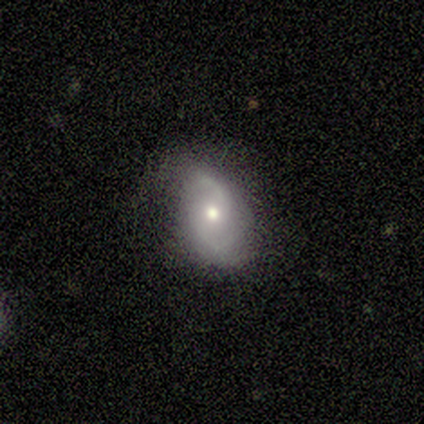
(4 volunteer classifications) A featured or disk galaxy (100%) with no bar (100%), 2 (67%) medium (67%) spiral arms (75%) and a moderate central bulge (75%).

Vote fractions:
- Smooth or featured? featured or disk: 100% / smooth: 0% / star or artifact: 0%
- Edge-on disk? no: 100% / yes: 0%
- Bar? no: 100% / strong: 0% / weak: 0%
- Spiral arms? yes: 75% / no: 25%
- Spiral winding? medium: 67% / loose: 33% / tight: 0%
- Spiral arm count? 2: 67% / can't tell: 33% / 1: 0% / 3: 0% / 4: 0% / more than 4: 0%
- Bulge size? moderate: 75% / small: 25% / dominant: 0% / large: 0% / none: 0%
- Merging? none: 50% (tied) / minor disturbance: 50% (tied) / major disturbance: 0% / merger: 0%